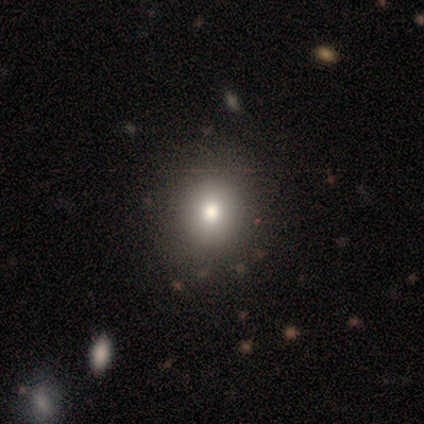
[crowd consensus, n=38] smooth_or_featured: smooth (p=0.63) [alt: star or artifact p=0.24]
how_rounded: round (p=0.75) [alt: in between p=0.25]
merging: none (p=0.90) [alt: minor disturbance p=0.07]